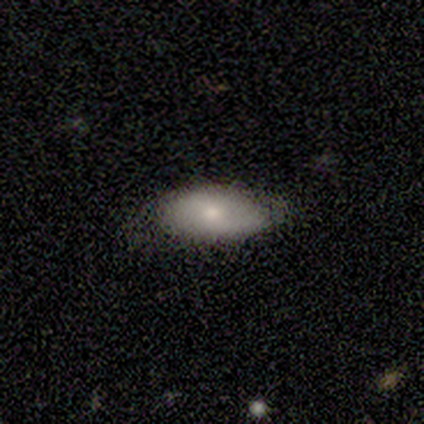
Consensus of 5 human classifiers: smooth-or-featured: smooth: 80% | featured or disk: 20% | star or artifact: 0%
  how-rounded: in between: 100% | round: 0% | cigar-shaped: 0%
  merging: none: 40% (tied) | minor disturbance: 40% (tied) | major disturbance: 20% | merger: 0%